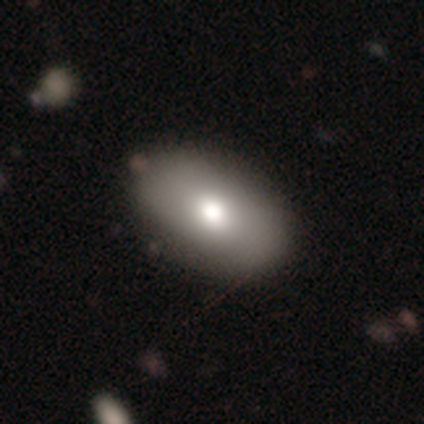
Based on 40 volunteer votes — Smooth or featured?
  - smooth: 88% *
  - featured or disk: 12%
  - star or artifact: 0%
How rounded?
  - in between: 94% *
  - round: 6%
  - cigar-shaped: 0%
Merging?
  - none: 55% *
  - merger: 8%
  - minor disturbance: 2%
  - major disturbance: 2%